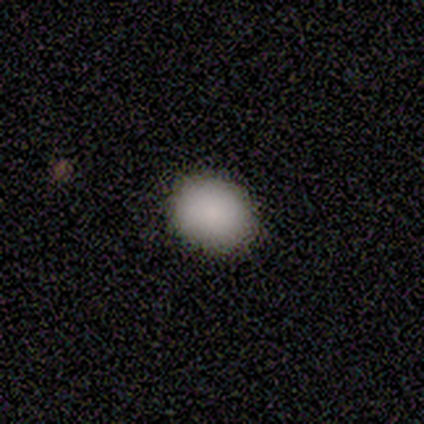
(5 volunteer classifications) Smooth or featured? 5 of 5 (100%) said smooth. How rounded? 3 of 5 (60%) said in between. Merging? 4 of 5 (80%) said none.